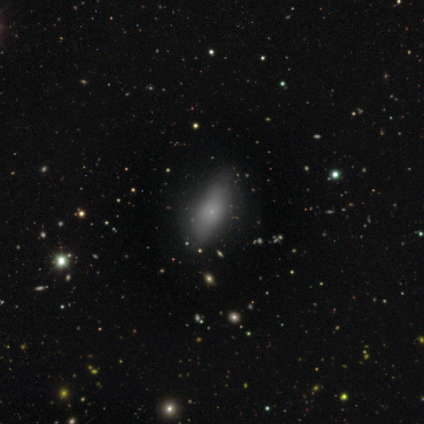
smooth_or_featured: smooth (p=0.62) [alt: featured or disk p=0.23]
how_rounded: in between (p=0.79) [alt: round p=0.12]
merging: none (p=0.70) [alt: minor disturbance p=0.24]